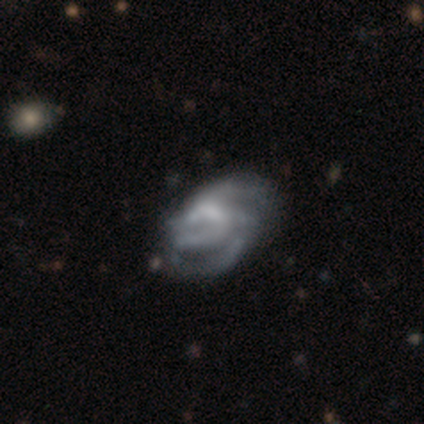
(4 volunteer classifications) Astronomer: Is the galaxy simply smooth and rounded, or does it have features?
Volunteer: featured or disk — 100%.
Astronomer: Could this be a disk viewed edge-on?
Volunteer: no — 100%.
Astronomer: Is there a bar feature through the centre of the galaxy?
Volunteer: weak — 50%, tied with no at 50%.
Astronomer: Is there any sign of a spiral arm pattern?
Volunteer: yes — 100%.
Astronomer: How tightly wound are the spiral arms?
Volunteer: loose — 50%.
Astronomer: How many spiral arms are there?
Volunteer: can't tell — 50%.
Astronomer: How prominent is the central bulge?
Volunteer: small — 50%.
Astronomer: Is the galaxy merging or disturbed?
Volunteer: major disturbance — 75%.